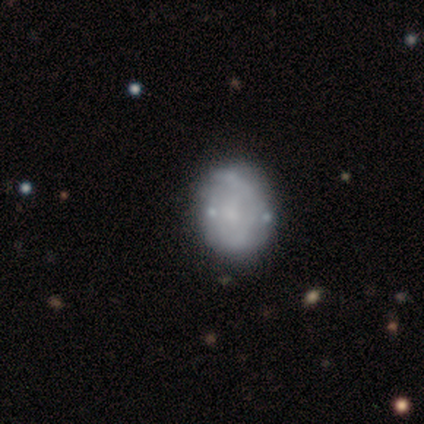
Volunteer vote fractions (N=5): featured or disk 100%, smooth 0%, star or artifact 0%. Down the decision tree: edge-on disk — no (100%); bar — no (80%); spiral arms — no (60%); bulge size — none (60%); merging — none (80%).